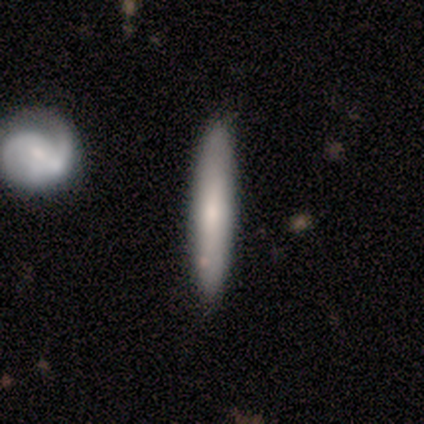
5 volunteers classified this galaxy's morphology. Q: Smooth or featured?
A: smooth (60%); runner-up: featured or disk (40%)
Q: How rounded?
A: cigar-shaped (100%)
Q: Merging?
A: none (100%)